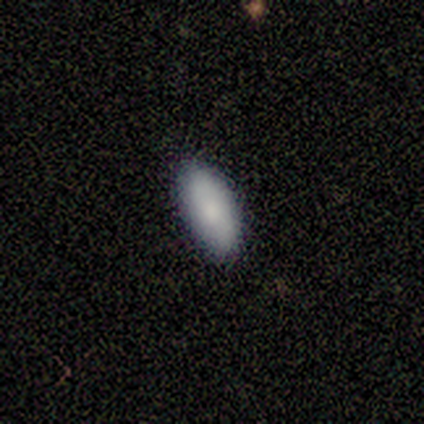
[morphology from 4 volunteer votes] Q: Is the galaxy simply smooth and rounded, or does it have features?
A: smooth — 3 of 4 (75%).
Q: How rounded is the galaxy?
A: in between — 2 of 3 (67%).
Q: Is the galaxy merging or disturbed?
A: none — 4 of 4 (100%).